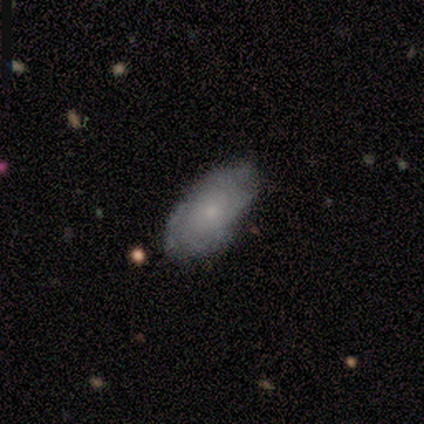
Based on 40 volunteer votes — Morphology: type=featured or disk (48%); edge-on=no (95%); bar=no (83%); spiral arms=yes (89%); winding=tight (50%); arm count=can't tell (56%); bulge=small (67%); merging=none (74%).